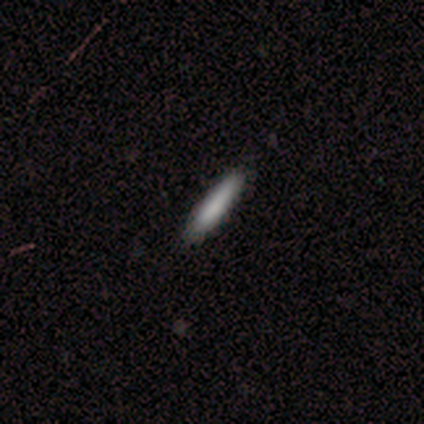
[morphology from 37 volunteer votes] type=smooth (92%); roundness=cigar-shaped (100%); merging=none (89%).